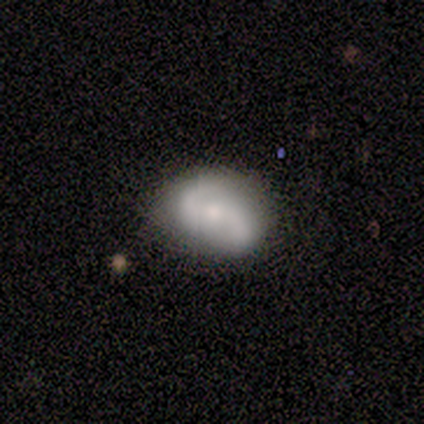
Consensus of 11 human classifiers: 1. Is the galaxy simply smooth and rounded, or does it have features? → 55% smooth, 45% featured or disk, 0% star or artifact.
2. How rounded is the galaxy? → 83% in between, 17% round, 0% cigar-shaped.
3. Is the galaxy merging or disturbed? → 64% none, 36% minor disturbance, 0% major disturbance, 0% merger.